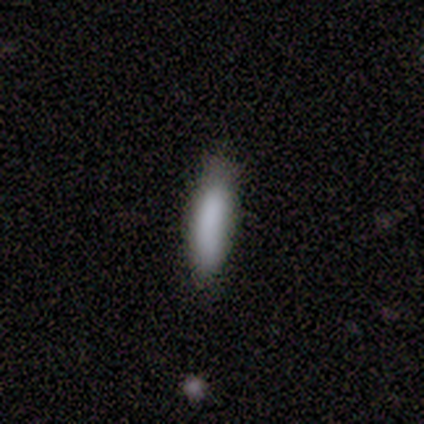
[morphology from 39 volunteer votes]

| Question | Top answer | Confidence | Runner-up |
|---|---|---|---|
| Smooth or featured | smooth | 79% | featured or disk (10%) |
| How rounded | cigar-shaped | 68% | in between (32%) |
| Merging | none | 74% | minor disturbance (17%) |